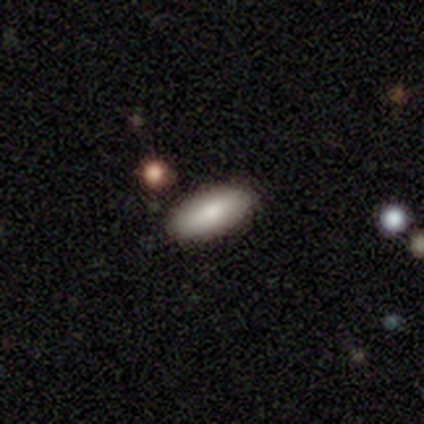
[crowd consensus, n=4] smooth-or-featured: smooth: 75% | featured or disk: 25% | star or artifact: 0%
  how-rounded: in between: 100% | round: 0% | cigar-shaped: 0%
  merging: none: 50% (tied) | minor disturbance: 50% (tied) | major disturbance: 0% | merger: 0%